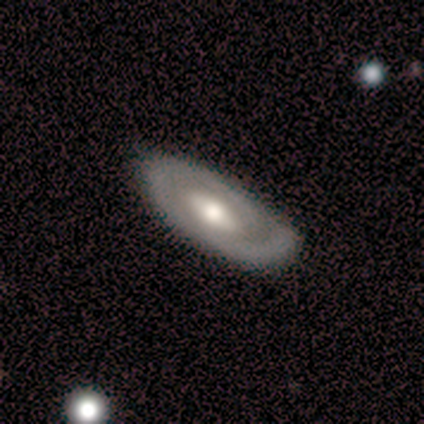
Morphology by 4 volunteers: type=featured or disk (75%); edge-on=no (100%); bar=no (67%); spiral arms=yes (67%); winding=medium (50%, tied with loose); arm count=2 (50%, tied with can't tell); bulge=large (67%); merging=none (75%).